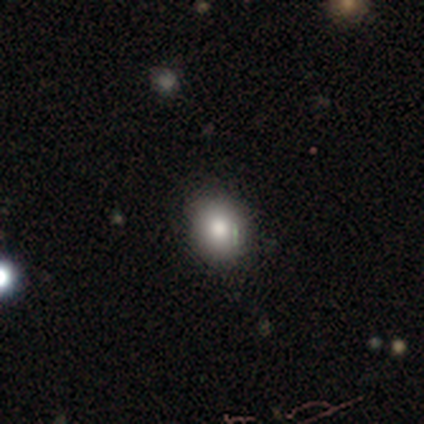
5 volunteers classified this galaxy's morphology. Smooth or featured? featured or disk (60%)
Edge-on disk? no (100%)
Bar? no (100%)
Spiral arms? no (100%)
Bulge size? moderate (67%)
Merging? none (80%)